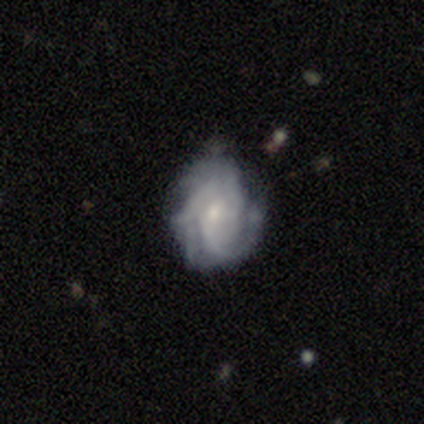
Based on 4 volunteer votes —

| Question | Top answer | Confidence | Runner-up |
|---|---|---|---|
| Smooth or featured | featured or disk | 75% | smooth (25%) |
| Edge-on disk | no | 100% | — |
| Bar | no | 100% | — |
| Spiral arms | yes | 100% | — |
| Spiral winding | tight | 67% | loose (33%) |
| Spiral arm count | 3 | 67% | can't tell (33%) |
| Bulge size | moderate | 100% | — |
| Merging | none | 75% | minor disturbance (25%) |